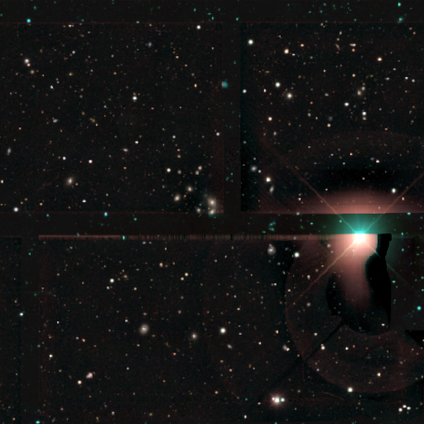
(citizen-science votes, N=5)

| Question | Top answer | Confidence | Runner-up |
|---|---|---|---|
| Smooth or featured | star or artifact | 80% | smooth (20%) |